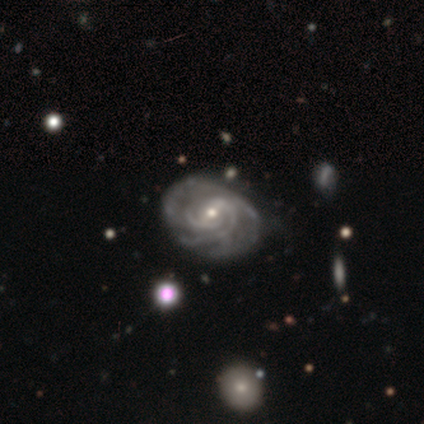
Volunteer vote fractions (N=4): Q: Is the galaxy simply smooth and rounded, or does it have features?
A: featured or disk — 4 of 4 (100%).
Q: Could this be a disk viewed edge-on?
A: no — 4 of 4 (100%).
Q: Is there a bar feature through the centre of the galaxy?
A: weak — 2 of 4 (50%, tied with no).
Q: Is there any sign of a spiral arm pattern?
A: yes — 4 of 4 (100%).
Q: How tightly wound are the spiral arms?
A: tight — 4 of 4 (100%).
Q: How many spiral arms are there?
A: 2 — 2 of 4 (50%).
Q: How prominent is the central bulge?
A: small — 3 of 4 (75%).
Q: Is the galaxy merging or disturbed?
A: minor disturbance — 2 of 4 (50%).